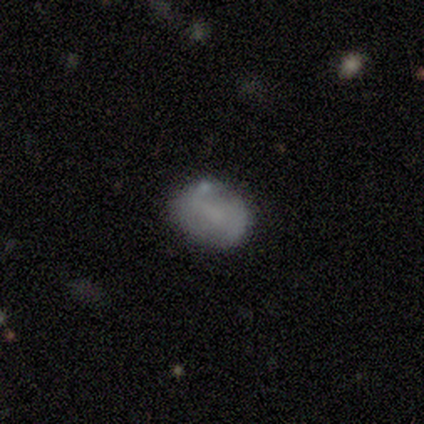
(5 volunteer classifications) Morphology: type=featured or disk (40%, tied with star or artifact); edge-on=no (100%); bar=weak (100%); spiral arms=yes (100%); winding=tight (50%, tied with medium); arm count=2 (50%, tied with can't tell); bulge=none (100%); merging=none (33%, tied with minor disturbance and major disturbance).